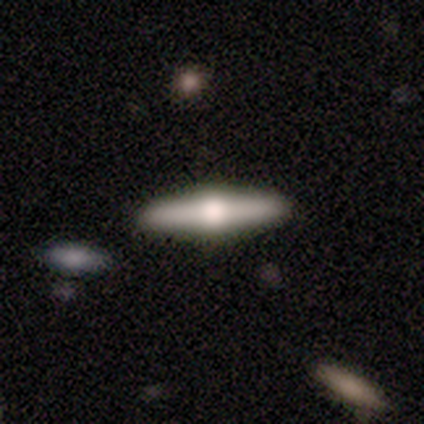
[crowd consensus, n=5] A featured or disk galaxy (80%) viewed edge-on (100%) with a rounded central bulge (100%).

Vote fractions:
- Smooth or featured? featured or disk: 80% / smooth: 20% / star or artifact: 0%
- Edge-on disk? yes: 100% / no: 0%
- Edge-on bulge? rounded: 100% / boxy: 0% / none: 0%
- Merging? none: 100% / minor disturbance: 0% / major disturbance: 0% / merger: 0%